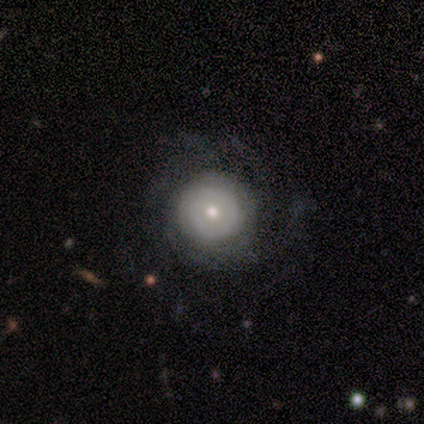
Smooth or featured? 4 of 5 (80%) said featured or disk. Edge-on disk? 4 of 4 (100%) said no. Bar? 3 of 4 (75%) said no. Spiral arms? 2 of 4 (50%, tied with no) said yes. Spiral winding? 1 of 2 (50%, tied with loose) said tight. Spiral arm count? 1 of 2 (50%, tied with more than 4) said 4. Bulge size? 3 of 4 (75%) said small. Merging? 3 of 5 (60%) said none.